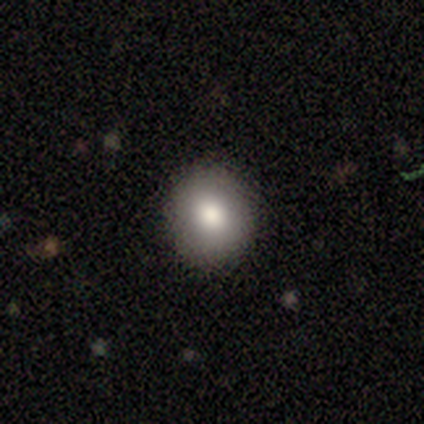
Smooth or featured? 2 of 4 (50%) said smooth. How rounded? 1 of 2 (50%, tied with in between) said round. Merging? 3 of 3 (100%) said none.